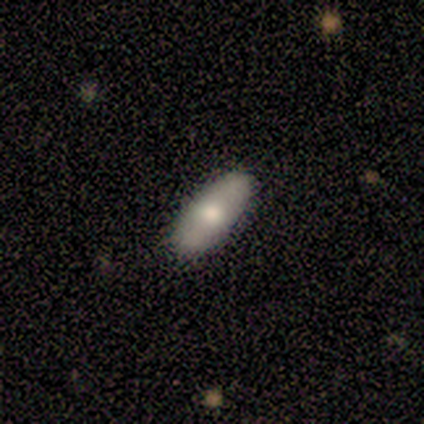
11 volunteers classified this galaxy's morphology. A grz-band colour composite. It shows a smooth galaxy with no disk features (55%) that is in between round and cigar-shaped (67%). Merging: none (89%).